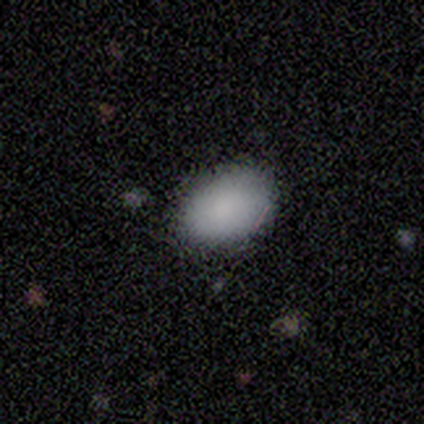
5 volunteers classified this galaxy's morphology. Consensus on every question: smooth or featured — smooth (100%); how rounded — in between (100%); merging — none (100%).